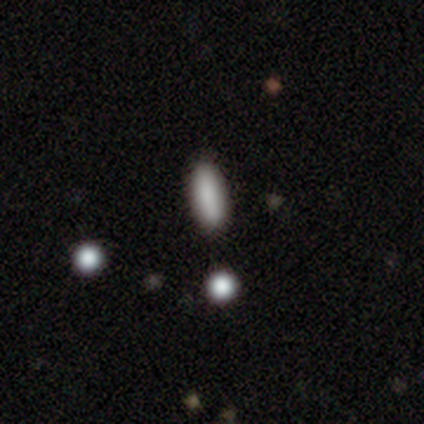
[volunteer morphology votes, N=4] Volunteers were most divided on "smooth or featured": smooth: 75%, featured or disk: 25%, star or artifact: 0%. More confident: how rounded — cigar-shaped (100%); merging — none (100%).